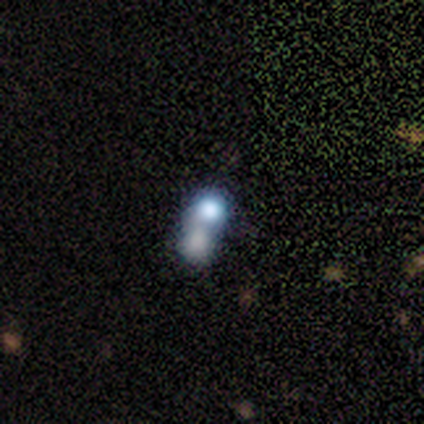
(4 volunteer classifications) A smooth galaxy with no disk features (50%, tied with featured or disk) that is round (50%, tied with in between).

Vote fractions:
- Smooth or featured? smooth: 50% (tied) / featured or disk: 50% (tied) / star or artifact: 0%
- How rounded? round: 50% (tied) / in between: 50% (tied) / cigar-shaped: 0%
- Merging? merger: 75% / none: 25% / minor disturbance: 0% / major disturbance: 0%